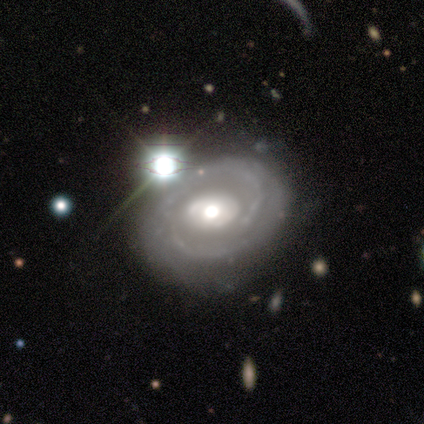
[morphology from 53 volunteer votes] type=featured or disk (94%); edge-on=no (96%); bar=no (75%); spiral arms=yes (83%); winding=tight (62%); arm count=2 (55%); bulge=moderate (79%); merging=none (74%).